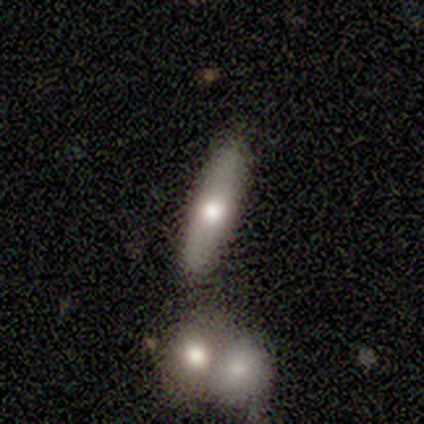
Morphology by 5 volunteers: smooth_or_featured: featured or disk (p=0.80) [alt: smooth p=0.20]
disk_edge_on: yes (p=1.00)
edge_on_bulge: rounded (p=1.00)
merging: none (p=0.80) [alt: minor disturbance p=0.20]